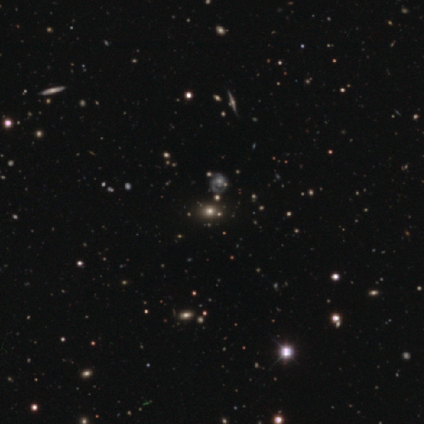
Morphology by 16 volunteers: Smooth or featured? smooth (44%, tied with star or artifact)
How rounded? in between (57%)
Merging? none (78%)